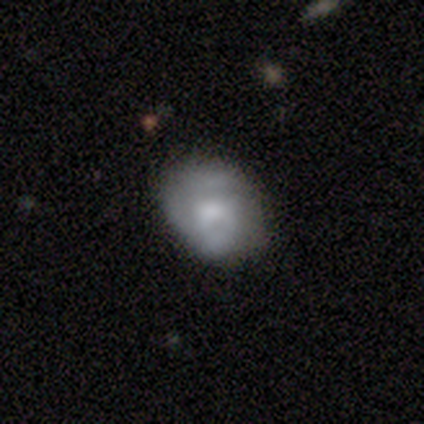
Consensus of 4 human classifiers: smooth_or_featured: smooth (p=0.75) [alt: featured or disk p=0.25]
how_rounded: round (p=0.67) [alt: in between p=0.33]
merging: none (p=0.75) [alt: minor disturbance p=0.25]